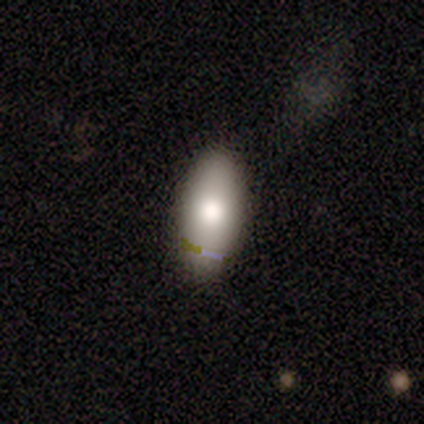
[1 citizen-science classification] A smooth galaxy with no disk features (100%) that is in between round and cigar-shaped (100%).

Vote fractions:
- Smooth or featured? smooth: 100% / featured or disk: 0% / star or artifact: 0%
- How rounded? in between: 100% / round: 0% / cigar-shaped: 0%
- Merging? none: 100% / minor disturbance: 0% / major disturbance: 0% / merger: 0%